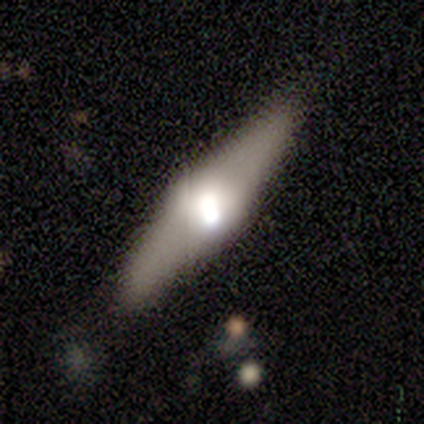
Smooth or featured?
  - featured or disk: 56% *
  - smooth: 33%
  - star or artifact: 11%
Edge-on disk?
  - yes: 80% *
  - no: 20%
Edge-on bulge?
  - boxy: 50% * (tied)
  - rounded: 50% * (tied)
  - none: 0%
Merging?
  - none: 75% *
  - major disturbance: 25%
  - minor disturbance: 0%
  - merger: 0%